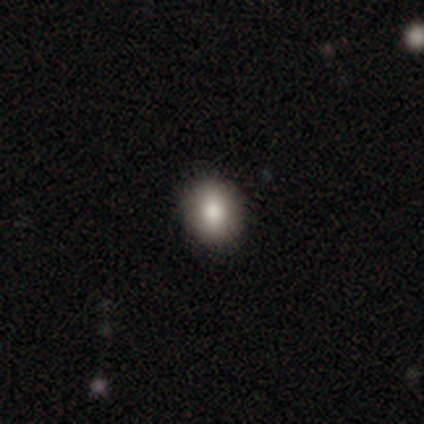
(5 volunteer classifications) A smooth galaxy with no disk features (100%) that is in between round and cigar-shaped (60%).

Vote fractions:
- Smooth or featured? smooth: 100% / featured or disk: 0% / star or artifact: 0%
- How rounded? in between: 60% / round: 40% / cigar-shaped: 0%
- Merging? none: 100% / minor disturbance: 0% / major disturbance: 0% / merger: 0%